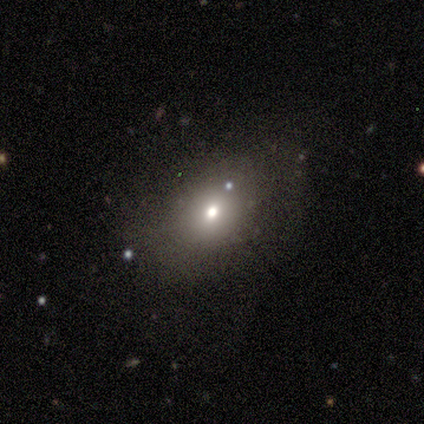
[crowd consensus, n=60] Smooth or featured: smooth — 57% (star or artifact — 23%)
How rounded: in between — 71% (round — 29%)
Merging: none — 61% (minor disturbance — 30%)